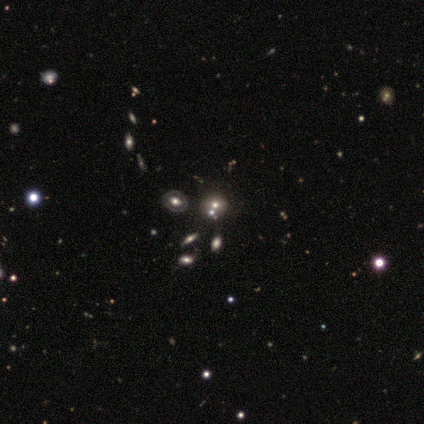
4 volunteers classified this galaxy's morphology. Overall: star or artifact (50%; smooth 25%).